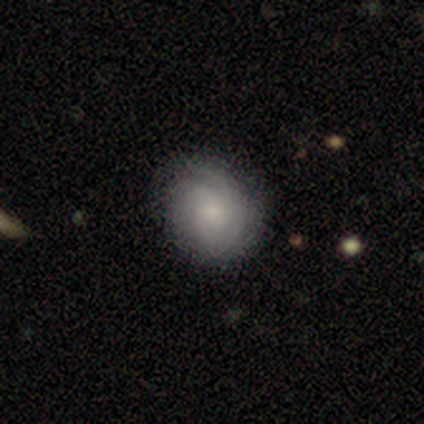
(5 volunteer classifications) Q: Smooth or featured?
A: featured or disk (80%); runner-up: smooth (20%)
Q: Edge-on disk?
A: no (100%)
Q: Bar?
A: no (100%)
Q: Spiral arms?
A: yes (100%)
Q: Spiral winding?
A: tight (100%)
Q: Spiral arm count?
A: can't tell (50%); runner-up: 2 (25%)
Q: Bulge size?
A: small (100%)
Q: Merging?
A: none (100%)